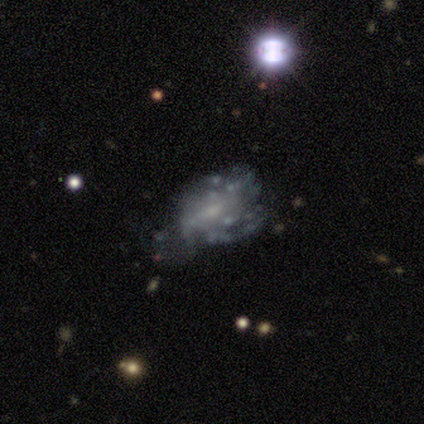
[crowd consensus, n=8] Smooth or featured? featured or disk (88%)
Edge-on disk? no (100%)
Bar? no (57%)
Spiral arms? yes (57%)
Spiral winding? tight (50%, tied with medium)
Spiral arm count? can't tell (50%)
Bulge size? small (86%)
Merging? none (50%)